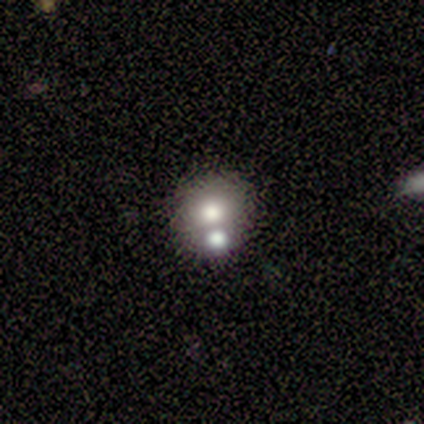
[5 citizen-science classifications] Morphology: type=smooth (100%); roundness=round (60%); merging=none (40%, tied with merger).